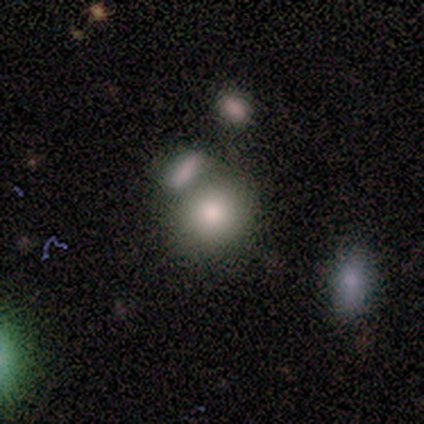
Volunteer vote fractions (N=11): This is clearly a smooth galaxy (82%). How rounded: likely round (67%). Merging: possibly merger (50%).